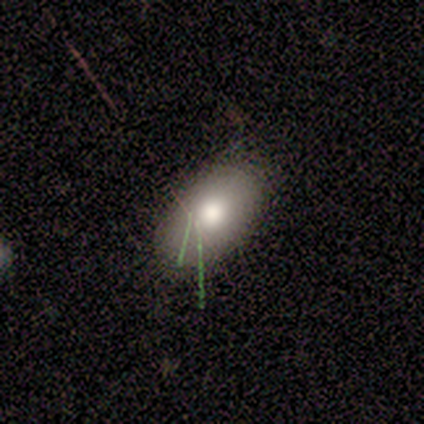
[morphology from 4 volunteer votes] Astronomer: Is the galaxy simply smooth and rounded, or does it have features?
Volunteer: smooth — 75%.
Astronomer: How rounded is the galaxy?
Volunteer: in between — 67%.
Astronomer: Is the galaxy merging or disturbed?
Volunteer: none — 100%.